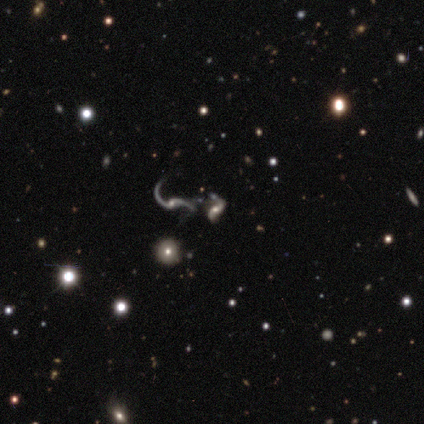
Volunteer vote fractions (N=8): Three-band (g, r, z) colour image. It shows a featured or disk galaxy (100%) with no bar (62%), 2 (100%) loose (100%) spiral arms (88%) and a small central bulge (50%). Merging: merger (62%).